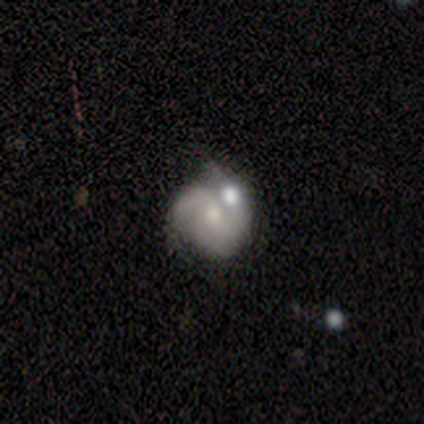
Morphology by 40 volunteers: featured or disk 80%, smooth 12%, star or artifact 8%. Down the decision tree: edge-on disk — no (100%); bar — no (53%); spiral arms — yes (84%); spiral arm count — 2 (63%); spiral winding — medium (48%); bulge size — small (50%); merging — none (38%).